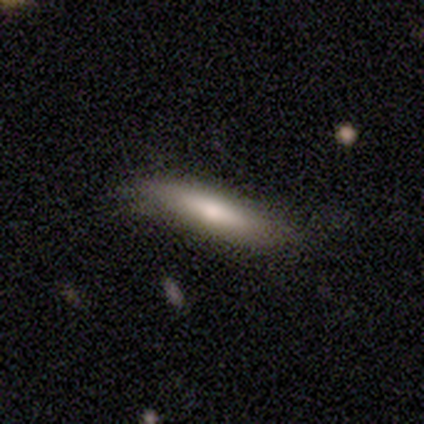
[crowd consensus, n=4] Smooth or featured? 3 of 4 (75%) said smooth. How rounded? 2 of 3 (67%) said in between. Merging? 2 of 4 (50%, tied with minor disturbance) said none.